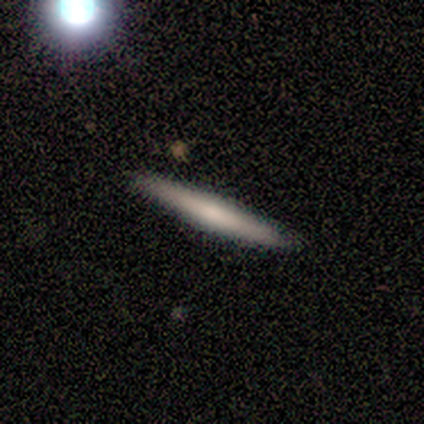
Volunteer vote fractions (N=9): smooth 89%, featured or disk 11%, star or artifact 0%. Down the decision tree: how rounded — cigar-shaped (100%); merging — none (89%).